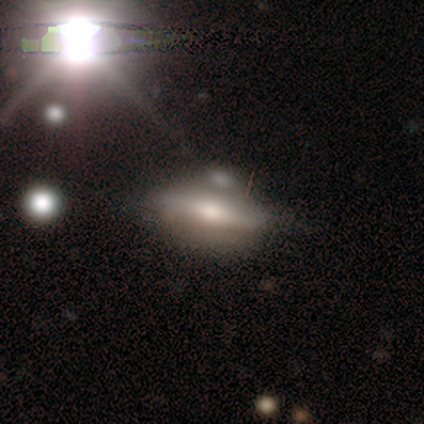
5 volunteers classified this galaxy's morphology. A featured or disk galaxy (60%) viewed edge-on (100%) with a rounded central bulge (100%). Merging: minor disturbance (60%).